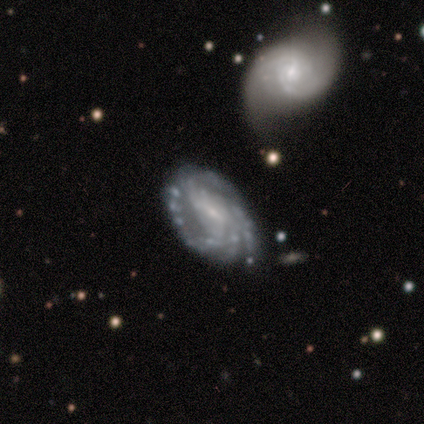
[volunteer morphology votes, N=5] A featured or disk galaxy (100%) with a weak bar (80%), 3 (40%, tied with can't tell) tight (60%) spiral arms (100%) and a small central bulge (100%).

Vote fractions:
- Smooth or featured? featured or disk: 100% / smooth: 0% / star or artifact: 0%
- Edge-on disk? no: 100% / yes: 0%
- Bar? weak: 80% / no: 20% / strong: 0%
- Spiral arms? yes: 100% / no: 0%
- Spiral winding? tight: 60% / medium: 40% / loose: 0%
- Spiral arm count? 3: 40% (tied) / can't tell: 40% (tied) / 2: 20% / 1: 0% / 4: 0% / more than 4: 0%
- Bulge size? small: 100% / dominant: 0% / large: 0% / moderate: 0% / none: 0%
- Merging? none: 60% / minor disturbance: 40% / major disturbance: 0% / merger: 0%